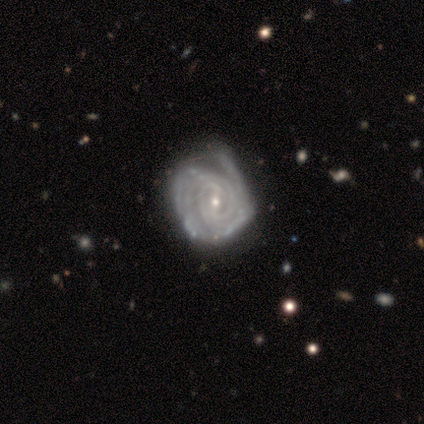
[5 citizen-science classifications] Morphology: type=featured or disk (100%); edge-on=no (100%); bar=weak (40%, tied with no); spiral arms=yes (100%); winding=tight (80%); arm count=can't tell (60%); bulge=small (100%); merging=minor disturbance (80%).